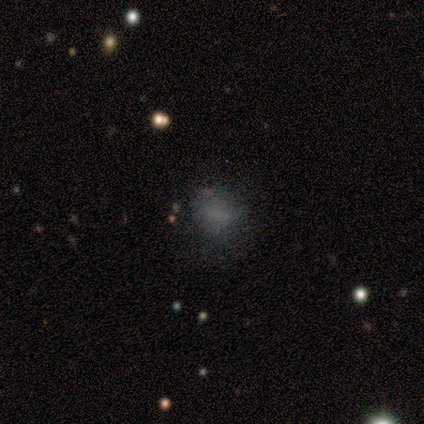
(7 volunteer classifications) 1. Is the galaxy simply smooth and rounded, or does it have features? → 43% star or artifact, 29% smooth, 29% featured or disk.